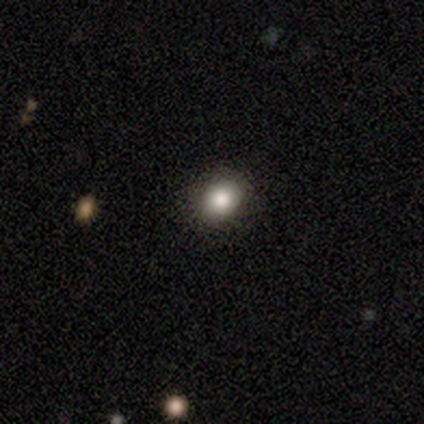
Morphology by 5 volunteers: Smooth or featured? 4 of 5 (80%) said smooth. How rounded? 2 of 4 (50%, tied with in between) said round. Merging? 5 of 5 (100%) said none.